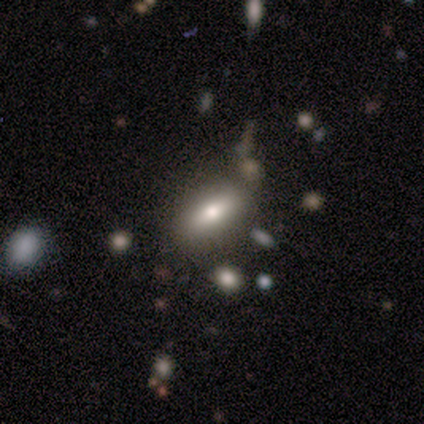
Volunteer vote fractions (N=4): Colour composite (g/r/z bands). It shows a smooth galaxy with no disk features (50%, tied with featured or disk) that is in between round and cigar-shaped (100%). Merging: none (50%, tied with merger).